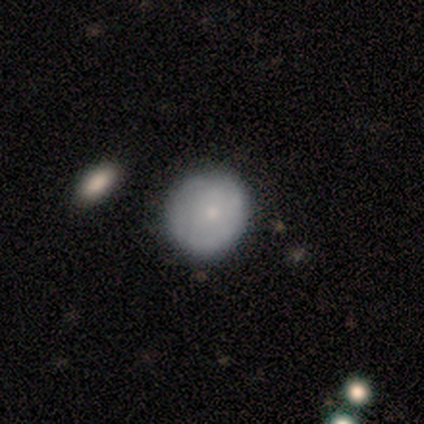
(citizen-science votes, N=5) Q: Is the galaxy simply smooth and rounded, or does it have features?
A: smooth — 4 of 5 (80%).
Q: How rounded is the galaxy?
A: round — 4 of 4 (100%).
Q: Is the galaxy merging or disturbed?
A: none — 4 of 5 (80%).